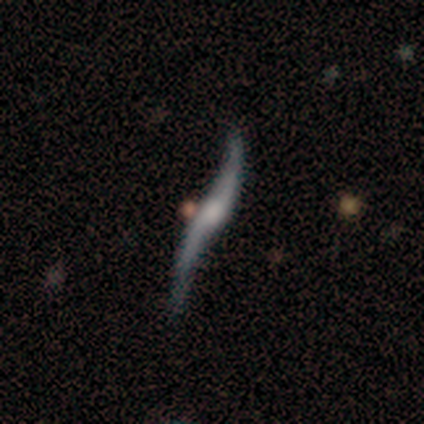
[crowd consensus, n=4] featured or disk 100%, smooth 0%, star or artifact 0%. Down the decision tree: edge-on disk — no (100%); bar — no (75%); spiral arms — yes (75%); spiral arm count — 2 (67%); spiral winding — loose (67%); bulge size — small (50%, tied with none); merging — none (50%, tied with major disturbance).